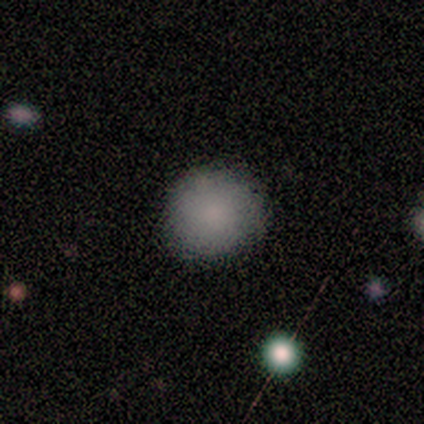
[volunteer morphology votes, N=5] smooth 80%, star or artifact 20%, featured or disk 0%. Down the decision tree: how rounded — round (100%); merging — none (100%).